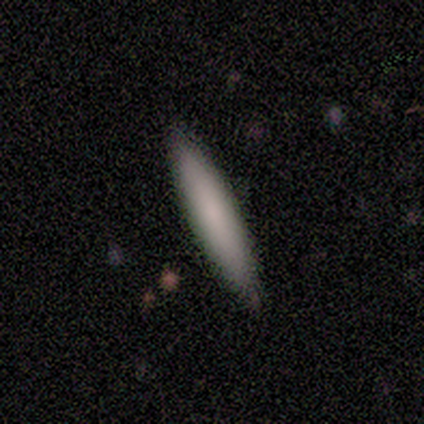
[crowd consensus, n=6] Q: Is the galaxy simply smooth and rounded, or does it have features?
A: smooth — 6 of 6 (100%).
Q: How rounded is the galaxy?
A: cigar-shaped — 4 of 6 (67%).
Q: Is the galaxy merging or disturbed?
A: none — 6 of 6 (100%).